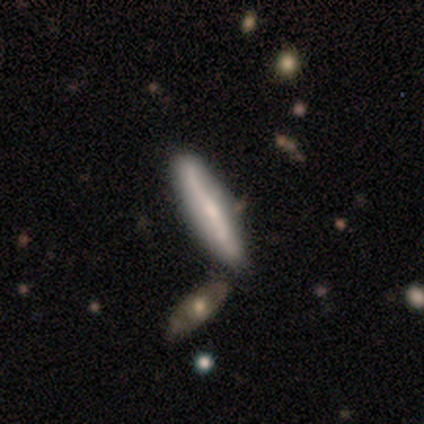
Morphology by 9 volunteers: Q: Smooth or featured?
A: featured or disk (56%); runner-up: smooth (33%)
Q: Edge-on disk?
A: yes (100%)
Q: Edge-on bulge?
A: none (60%); runner-up: rounded (40%)
Q: Merging?
A: none (75%); runner-up: minor disturbance (12%)